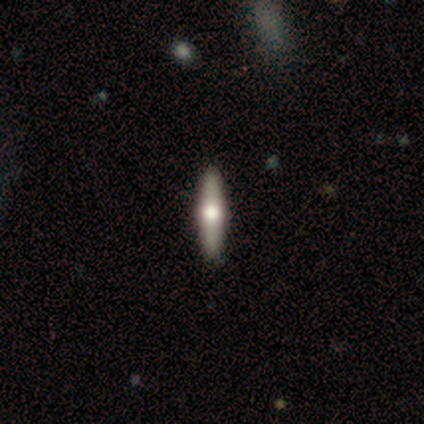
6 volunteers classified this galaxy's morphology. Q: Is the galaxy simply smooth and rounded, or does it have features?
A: featured or disk — 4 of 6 (67%).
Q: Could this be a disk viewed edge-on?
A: yes — 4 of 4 (100%).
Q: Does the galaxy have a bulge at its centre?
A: rounded — 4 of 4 (100%).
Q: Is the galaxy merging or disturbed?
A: none — 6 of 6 (100%).